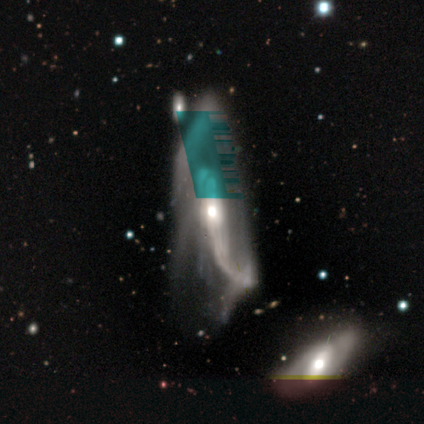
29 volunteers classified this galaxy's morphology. Volunteers were most divided on "bar": no: 52%, weak: 29%, strong: 19%. More confident: edge-on disk — no (91%); spiral arms — yes (81%); smooth or featured — featured or disk (79%); bulge size — moderate (76%); merging — major disturbance (65%); spiral arm count — 2 (65%); spiral winding — loose (59%).